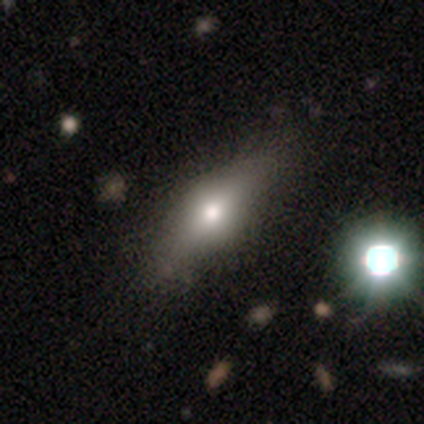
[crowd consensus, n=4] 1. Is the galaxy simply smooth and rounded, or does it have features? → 50% smooth (tied), 50% featured or disk (tied), 0% star or artifact.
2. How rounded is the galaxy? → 100% in between, 0% round, 0% cigar-shaped.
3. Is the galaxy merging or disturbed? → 50% none, 25% minor disturbance, 25% merger, 0% major disturbance.